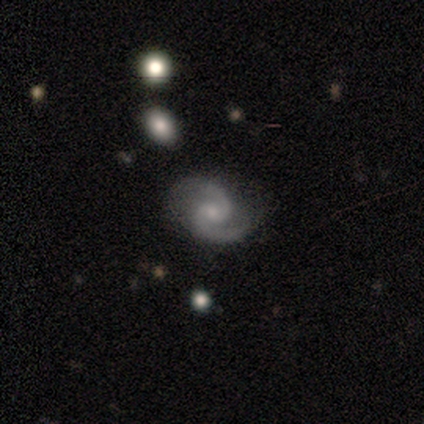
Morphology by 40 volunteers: This appears to be a featured or disk galaxy (80%) with no bar (62%), 2 (97%) medium (70%) spiral arms (94%) and a small central bulge (69%). Merging: none (84%).